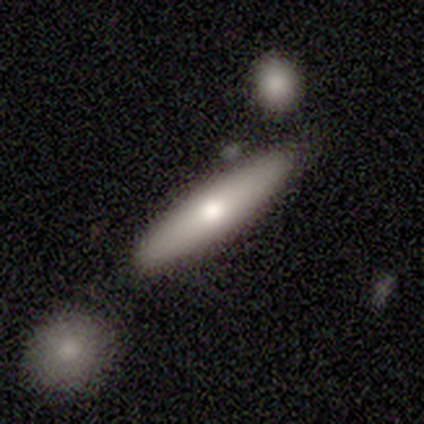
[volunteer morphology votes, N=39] smooth 69%, featured or disk 28%, star or artifact 3%. Down the decision tree: how rounded — cigar-shaped (81%); merging — none (84%).